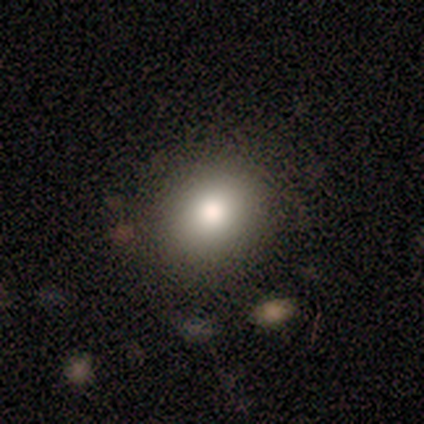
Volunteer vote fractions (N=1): smooth_or_featured: smooth (p=1.00)
how_rounded: in between (p=1.00)
merging: minor disturbance (p=1.00)